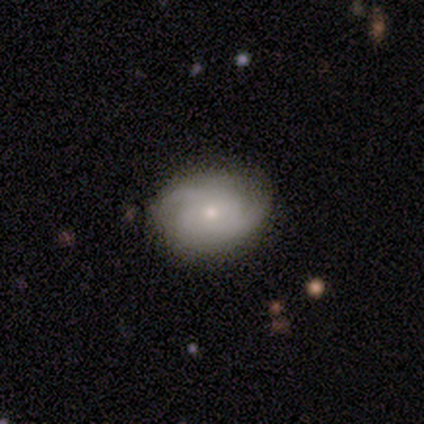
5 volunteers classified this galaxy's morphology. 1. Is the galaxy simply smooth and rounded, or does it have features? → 100% featured or disk, 0% smooth, 0% star or artifact.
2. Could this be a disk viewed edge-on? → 100% no, 0% yes.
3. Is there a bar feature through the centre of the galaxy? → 100% no, 0% strong, 0% weak.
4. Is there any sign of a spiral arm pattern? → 100% yes, 0% no.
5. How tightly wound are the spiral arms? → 60% medium, 40% tight, 0% loose.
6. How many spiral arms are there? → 40% 3 (tied), 40% can't tell (tied), 20% 2, 0% 1, 0% 4, 0% more than 4.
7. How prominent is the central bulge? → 80% small, 20% moderate, 0% dominant, 0% large, 0% none.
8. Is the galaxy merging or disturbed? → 100% none, 0% minor disturbance, 0% major disturbance, 0% merger.